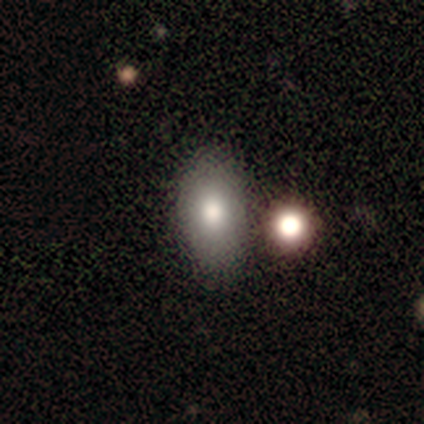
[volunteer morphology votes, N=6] smooth-or-featured: smooth: 100% | featured or disk: 0% | star or artifact: 0%
  how-rounded: in between: 83% | round: 17% | cigar-shaped: 0%
  merging: none: 83% | merger: 17% | minor disturbance: 0% | major disturbance: 0%